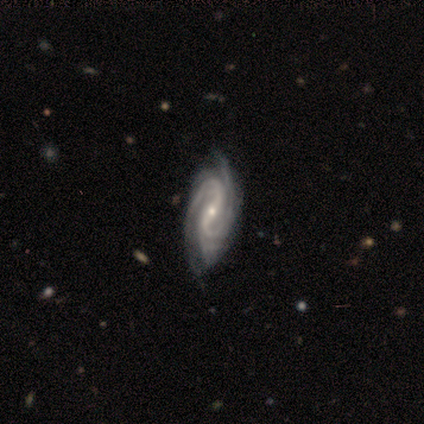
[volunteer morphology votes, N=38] A featured or disk galaxy (97%) with a strong bar (51%), 2 (54%) tight (46%, tied with medium) spiral arms (100%) and a small central bulge (74%). Merging: none (61%).